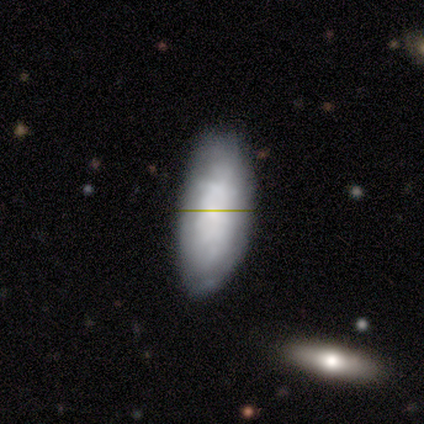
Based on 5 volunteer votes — This is clearly a smooth galaxy (80%). How rounded: possibly in between (50%, tied with cigar-shaped). Merging: likely minor disturbance (60%).